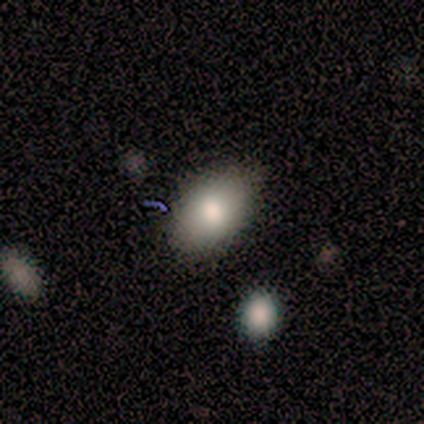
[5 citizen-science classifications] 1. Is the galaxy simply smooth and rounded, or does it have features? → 100% smooth, 0% featured or disk, 0% star or artifact.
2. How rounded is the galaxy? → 80% in between, 20% round, 0% cigar-shaped.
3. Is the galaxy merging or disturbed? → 100% none, 0% minor disturbance, 0% major disturbance, 0% merger.